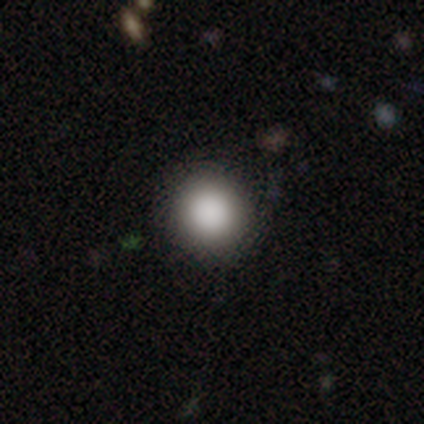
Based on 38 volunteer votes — smooth_or_featured: smooth (p=0.82) [alt: star or artifact p=0.11]
how_rounded: round (p=0.97) [alt: cigar-shaped p=0.03]
merging: none (p=0.97) [alt: minor disturbance p=0.03]